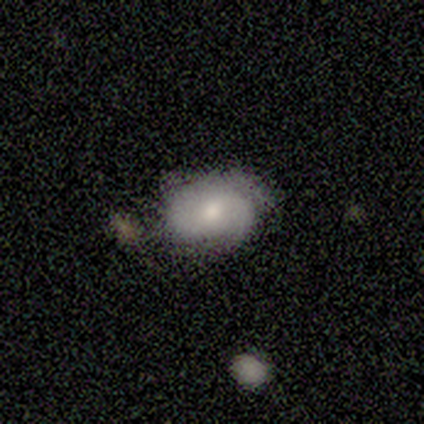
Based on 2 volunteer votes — A smooth galaxy with no disk features (50%, tied with featured or disk) that is in between round and cigar-shaped (100%).

Vote fractions:
- Smooth or featured? smooth: 50% (tied) / featured or disk: 50% (tied) / star or artifact: 0%
- How rounded? in between: 100% / round: 0% / cigar-shaped: 0%
- Merging? none: 50% (tied) / minor disturbance: 50% (tied) / major disturbance: 0% / merger: 0%